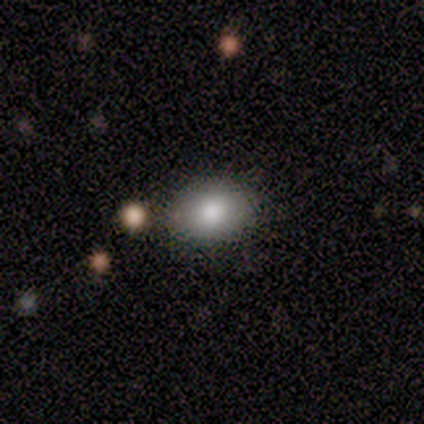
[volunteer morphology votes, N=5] Smooth or featured? 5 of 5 (100%) said smooth. How rounded? 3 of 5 (60%) said round. Merging? 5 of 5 (100%) said none.